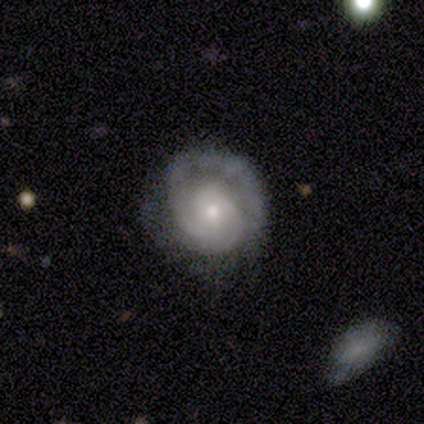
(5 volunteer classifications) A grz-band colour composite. It shows a featured or disk galaxy (60%) with no bar (100%), 2 (67%) medium (67%) spiral arms (100%) and a small central bulge (67%). Merging: none (80%).